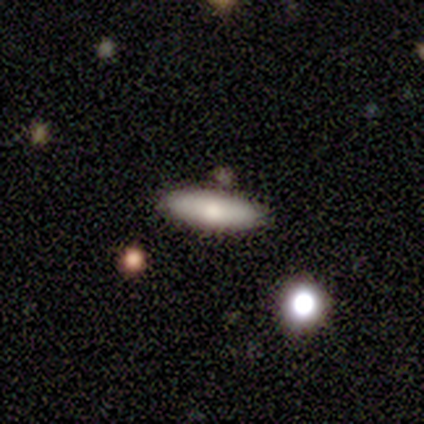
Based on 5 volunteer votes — Morphology: type=smooth (80%); roundness=cigar-shaped (75%); merging=none (100%).